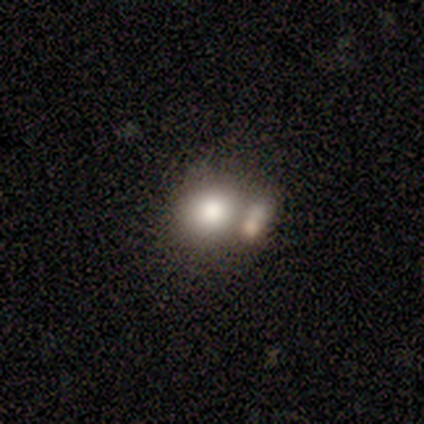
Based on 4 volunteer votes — smooth-or-featured: smooth: 100% | featured or disk: 0% | star or artifact: 0%
  how-rounded: round: 50% (tied) | in between: 50% (tied) | cigar-shaped: 0%
  merging: merger: 100% | none: 0% | minor disturbance: 0% | major disturbance: 0%